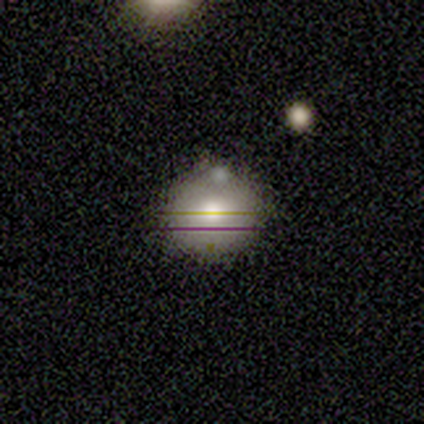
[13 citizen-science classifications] Q: Smooth or featured?
A: smooth (54%); runner-up: star or artifact (31%)
Q: How rounded?
A: round (100%)
Q: Merging?
A: none (67%); runner-up: minor disturbance (22%)